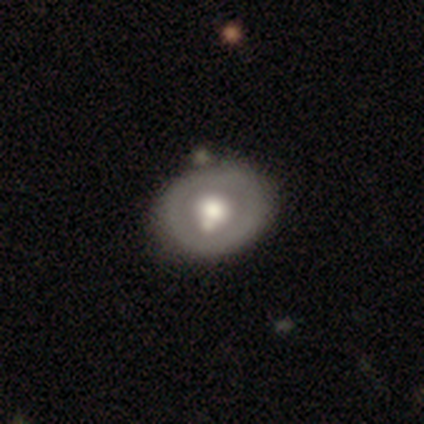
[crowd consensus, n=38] smooth 50%, featured or disk 47%, star or artifact 3%. Down the decision tree: how rounded — round (63%); merging — none (68%).